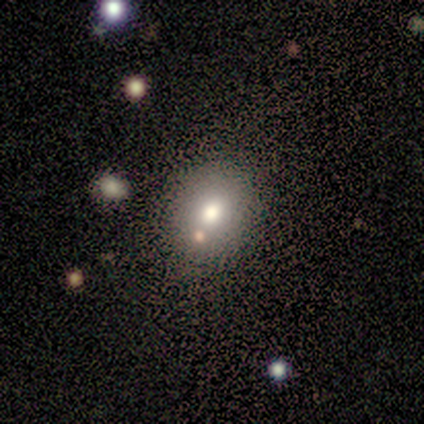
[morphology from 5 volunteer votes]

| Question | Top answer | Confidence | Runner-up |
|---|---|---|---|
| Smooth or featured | smooth | 80% | star or artifact (20%) |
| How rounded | round | 50% | tied: in between (50%) |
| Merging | none | 75% | merger (25%) |